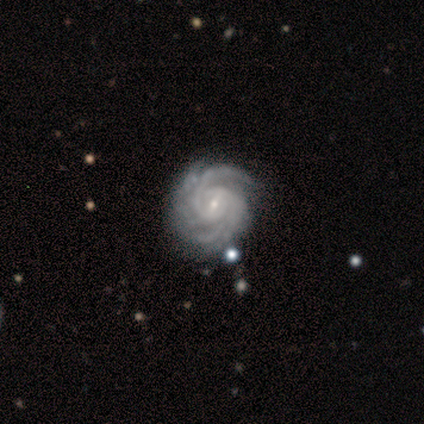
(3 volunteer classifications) A featured or disk galaxy (100%) with a strong bar (33%, tied with weak and no), 3 (33%, tied with 4 and more than 4) tight (100%) spiral arms (100%) and a small central bulge (100%).

Vote fractions:
- Smooth or featured? featured or disk: 100% / smooth: 0% / star or artifact: 0%
- Edge-on disk? no: 100% / yes: 0%
- Bar? strong: 33% (tied) / weak: 33% (tied) / no: 33% (tied)
- Spiral arms? yes: 100% / no: 0%
- Spiral winding? tight: 100% / medium: 0% / loose: 0%
- Spiral arm count? 3: 33% (tied) / 4: 33% (tied) / more than 4: 33% (tied) / 1: 0% / 2: 0% / can't tell: 0%
- Bulge size? small: 100% / dominant: 0% / large: 0% / moderate: 0% / none: 0%
- Merging? none: 100% / minor disturbance: 0% / major disturbance: 0% / merger: 0%